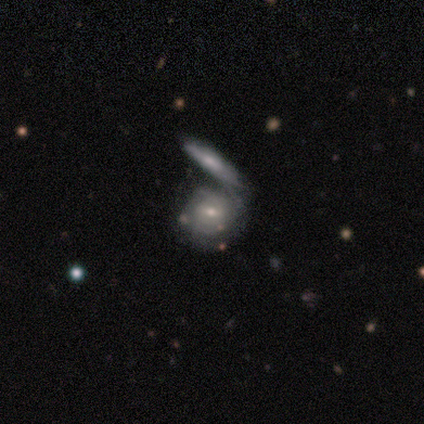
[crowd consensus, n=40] Q: Smooth or featured?
A: featured or disk (68%); runner-up: smooth (28%)
Q: Edge-on disk?
A: no (100%)
Q: Bar?
A: no (52%); runner-up: weak (41%)
Q: Spiral arms?
A: yes (63%); runner-up: no (37%)
Q: Spiral winding?
A: tight (65%); runner-up: medium (18%)
Q: Spiral arm count?
A: can't tell (71%); runner-up: 2 (24%)
Q: Bulge size?
A: small (63%); runner-up: moderate (33%)
Q: Merging?
A: merger (61%); runner-up: none (16%)